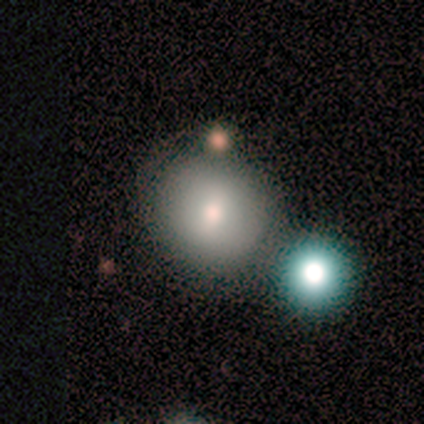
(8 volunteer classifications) Morphology: type=smooth (62%); roundness=round (80%); merging=none (57%).